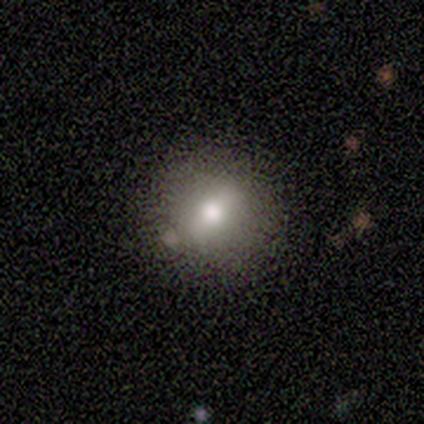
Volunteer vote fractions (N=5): A smooth galaxy with no disk features (60%) that is round (100%). Merging: none (100%).